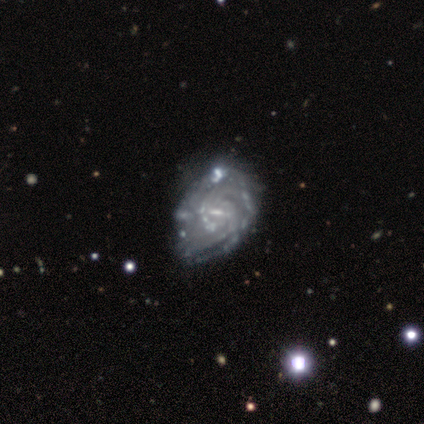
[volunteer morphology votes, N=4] featured or disk 100%, smooth 0%, star or artifact 0%. Down the decision tree: edge-on disk — no (100%); bar — weak (50%); spiral arms — yes (100%); spiral arm count — more than 4 (75%); spiral winding — tight (75%); bulge size — small (50%); merging — none (50%, tied with major disturbance).